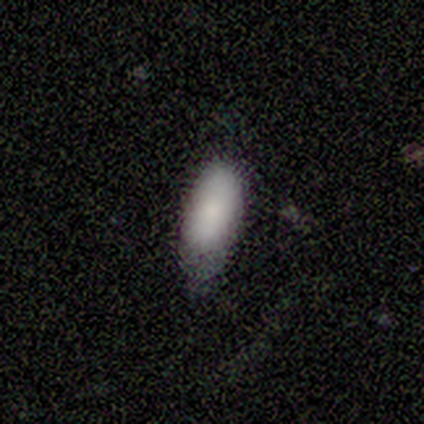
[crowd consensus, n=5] This is clearly a smooth galaxy (100%). How rounded: clearly in between (80%). Merging: likely minor disturbance (60%).